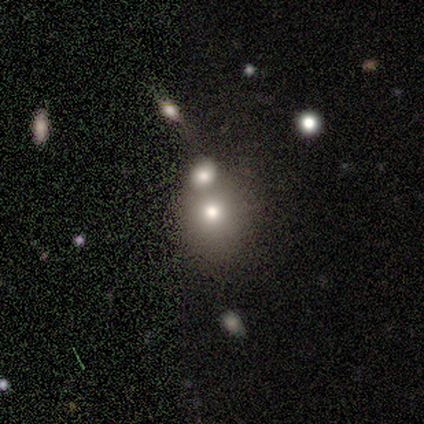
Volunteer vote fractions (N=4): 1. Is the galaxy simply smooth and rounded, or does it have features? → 75% smooth, 25% star or artifact, 0% featured or disk.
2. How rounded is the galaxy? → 67% in between, 33% round, 0% cigar-shaped.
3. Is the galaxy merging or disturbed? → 67% none, 33% merger, 0% minor disturbance, 0% major disturbance.